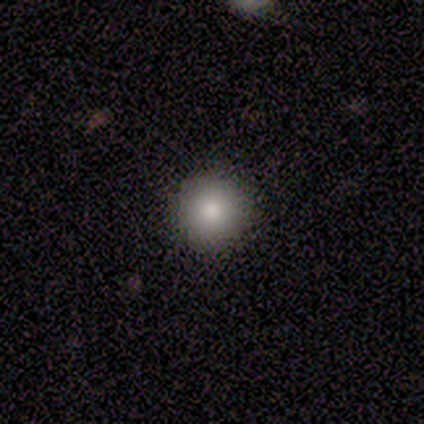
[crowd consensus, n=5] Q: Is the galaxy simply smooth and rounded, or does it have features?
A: smooth — 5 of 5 (100%).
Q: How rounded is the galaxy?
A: round — 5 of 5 (100%).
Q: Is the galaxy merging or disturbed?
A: none — 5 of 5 (100%).